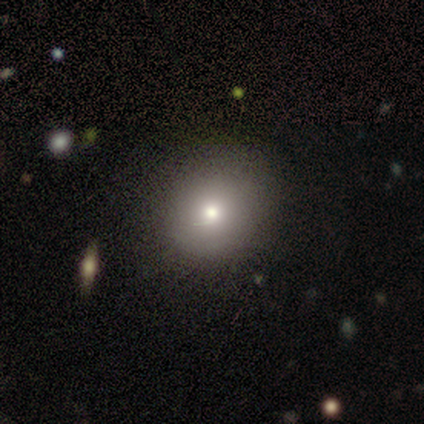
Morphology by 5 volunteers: Smooth or featured? 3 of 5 (60%) said smooth. How rounded? 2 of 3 (67%) said round. Merging? 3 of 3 (100%) said none.